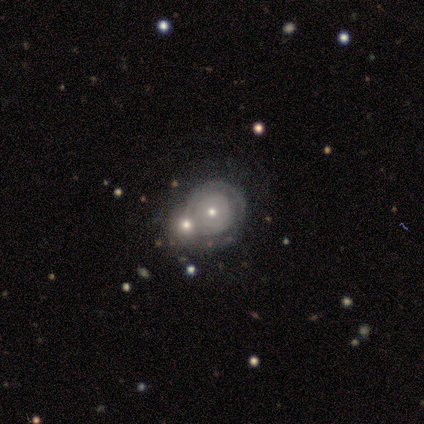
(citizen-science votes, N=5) Overall: featured or disk (60%; smooth 40%). Edge-on disk: no (67%; yes 33%). Bar: no (100%). Spiral arms: yes (50%, tied with no). Spiral arm count: can't tell (100%). Spiral winding: tight (100%). Bulge size: small (100%). Merging: merger (80%).